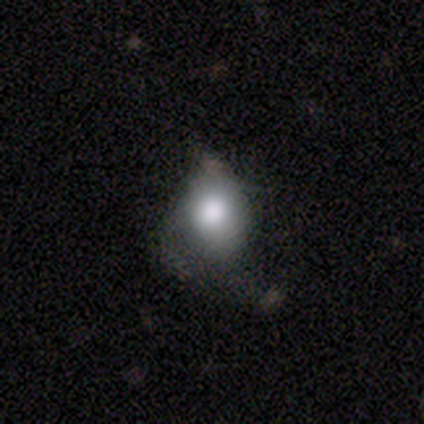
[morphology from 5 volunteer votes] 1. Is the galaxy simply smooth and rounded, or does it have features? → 80% smooth, 20% featured or disk, 0% star or artifact.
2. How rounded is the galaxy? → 50% round (tied), 50% in between (tied), 0% cigar-shaped.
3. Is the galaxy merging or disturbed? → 60% major disturbance, 20% none, 20% minor disturbance, 0% merger.